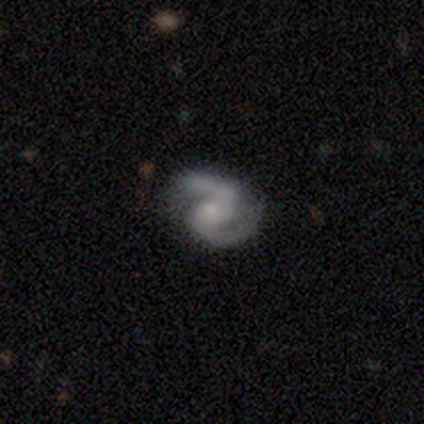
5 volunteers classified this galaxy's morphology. This appears to be a featured or disk galaxy (60%) with no bar (100%), 2 (100%) medium (67%) spiral arms (100%) and a small central bulge (67%). Merging: none (50%, tied with minor disturbance).